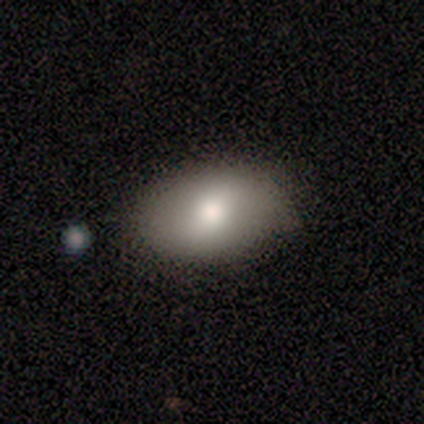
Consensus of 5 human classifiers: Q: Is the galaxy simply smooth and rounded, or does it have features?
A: smooth — 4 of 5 (80%).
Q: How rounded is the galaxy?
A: in between — 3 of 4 (75%).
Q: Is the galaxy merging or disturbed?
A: none — 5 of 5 (100%).